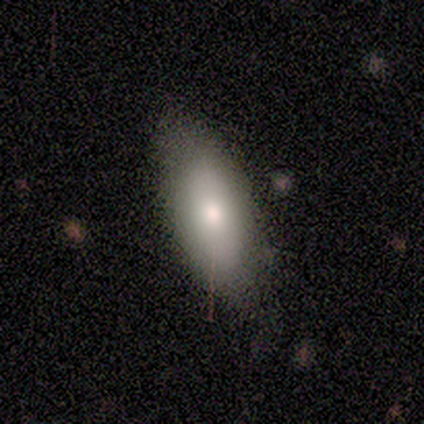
Smooth or featured?
  - smooth: 40% * (tied)
  - featured or disk: 40% * (tied)
  - star or artifact: 20%
How rounded?
  - in between: 50% * (tied)
  - cigar-shaped: 50% * (tied)
  - round: 0%
Merging?
  - none: 50% *
  - minor disturbance: 25%
  - major disturbance: 25%
  - merger: 0%